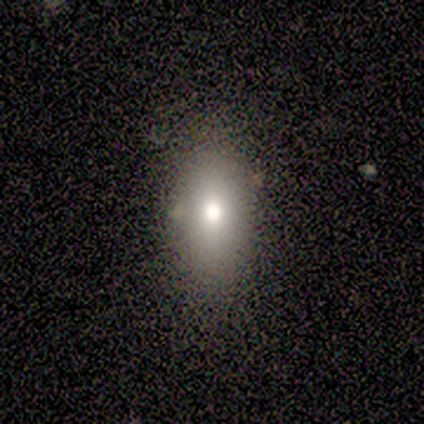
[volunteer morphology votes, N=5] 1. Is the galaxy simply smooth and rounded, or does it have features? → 60% smooth, 40% featured or disk, 0% star or artifact.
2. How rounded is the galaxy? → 100% in between, 0% round, 0% cigar-shaped.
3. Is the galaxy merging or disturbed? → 100% none, 0% minor disturbance, 0% major disturbance, 0% merger.